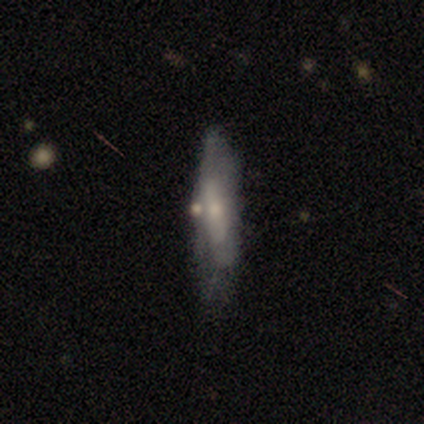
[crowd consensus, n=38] smooth-or-featured: featured or disk: 55% | smooth: 45% | star or artifact: 0%
  disk-edge-on: no: 52% | yes: 48%
    bar: no: 64% | strong: 27% | weak: 9%
    has-spiral-arms: no: 64% | yes: 36%
    bulge-size: small: 45% | moderate: 36% | large: 18% | dominant: 0% | none: 0%
  merging: none: 34% (tied) | minor disturbance: 34% (tied) | major disturbance: 16% | merger: 16%